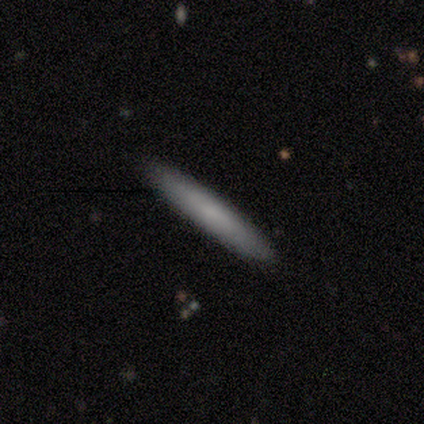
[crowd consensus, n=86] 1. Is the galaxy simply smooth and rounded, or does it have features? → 77% smooth, 19% featured or disk, 5% star or artifact.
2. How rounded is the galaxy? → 95% cigar-shaped, 3% round, 2% in between.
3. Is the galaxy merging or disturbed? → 93% none, 6% minor disturbance, 1% major disturbance, 0% merger.